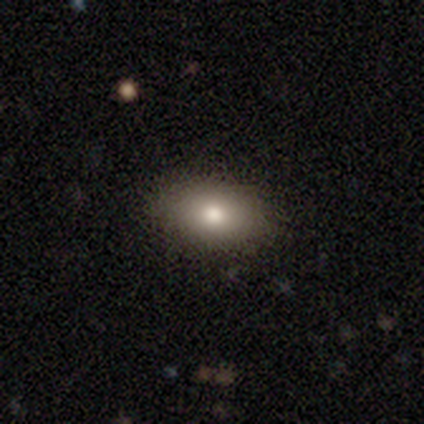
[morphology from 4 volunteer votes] Volunteers were most divided on "smooth or featured" (2-way tie): smooth: 50%, featured or disk: 50%, star or artifact: 0%. More confident: how rounded — in between (100%); merging — none (75%).